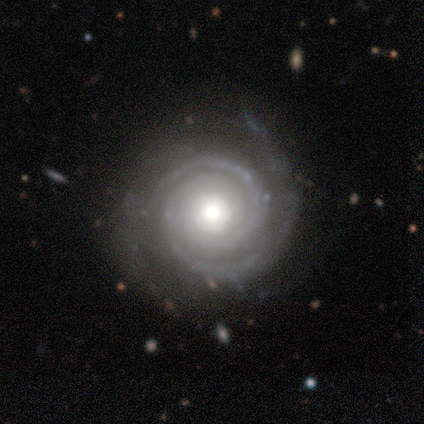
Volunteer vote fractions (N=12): Q: Smooth or featured?
A: featured or disk (100%)
Q: Edge-on disk?
A: no (92%); runner-up: yes (8%)
Q: Bar?
A: no (82%); runner-up: strong (18%)
Q: Spiral arms?
A: yes (100%)
Q: Spiral winding?
A: tight (100%)
Q: Spiral arm count?
A: 2 (82%); runner-up: 3 (18%)
Q: Bulge size?
A: large (45%); runner-up: moderate (36%)
Q: Merging?
A: none (75%); runner-up: minor disturbance (17%)